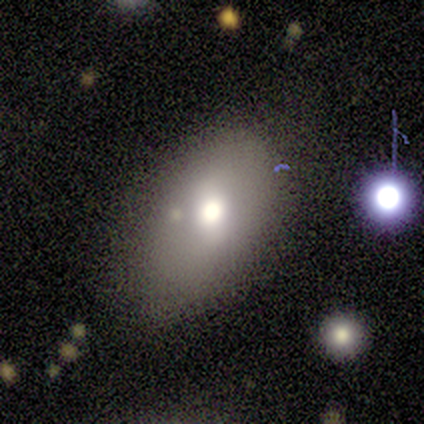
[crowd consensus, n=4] smooth-or-featured: smooth: 75% | featured or disk: 25% | star or artifact: 0%
  how-rounded: in between: 100% | round: 0% | cigar-shaped: 0%
  merging: none: 50% | minor disturbance: 25% | merger: 25% | major disturbance: 0%